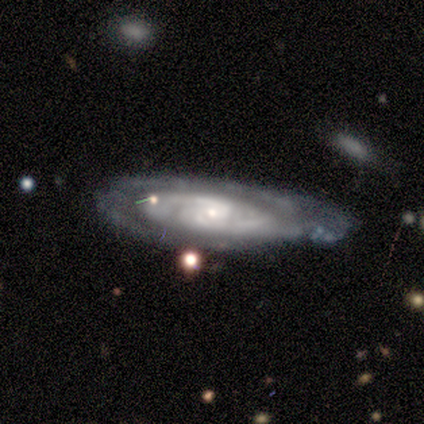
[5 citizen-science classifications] This is clearly a featured or disk galaxy (80%). It is clearly not viewed edge-on (100%). Bar: possibly weak (50%, tied with no). Spiral arm pattern: clearly yes (100%). Spiral arm count: possibly can't tell (50%). Spiral winding: likely tight (75%). Central bulge: clearly small (100%). Merging: likely none (60%).